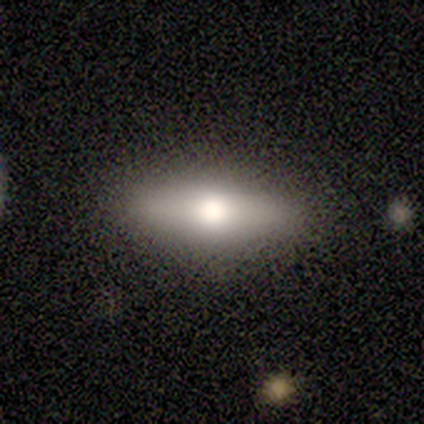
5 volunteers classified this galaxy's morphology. A smooth galaxy with no disk features (80%) that is in between round and cigar-shaped (50%, tied with cigar-shaped).

Vote fractions:
- Smooth or featured? smooth: 80% / featured or disk: 20% / star or artifact: 0%
- How rounded? in between: 50% (tied) / cigar-shaped: 50% (tied) / round: 0%
- Merging? none: 100% / minor disturbance: 0% / major disturbance: 0% / merger: 0%